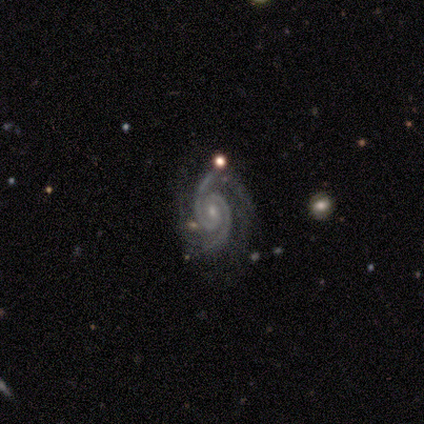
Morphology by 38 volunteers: Smooth or featured? 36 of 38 (95%) said featured or disk. Edge-on disk? 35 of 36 (97%) said no. Bar? 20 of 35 (57%) said no. Spiral arms? 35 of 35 (100%) said yes. Spiral winding? 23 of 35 (66%) said tight. Spiral arm count? 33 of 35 (94%) said 2. Bulge size? 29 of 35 (83%) said small. Merging? 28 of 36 (78%) said none.